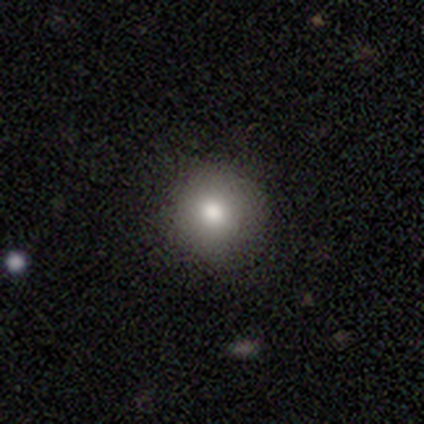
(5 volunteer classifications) A smooth galaxy with no disk features (80%) that is round (50%, tied with in between).

Vote fractions:
- Smooth or featured? smooth: 80% / star or artifact: 20% / featured or disk: 0%
- How rounded? round: 50% (tied) / in between: 50% (tied) / cigar-shaped: 0%
- Merging? none: 100% / minor disturbance: 0% / major disturbance: 0% / merger: 0%